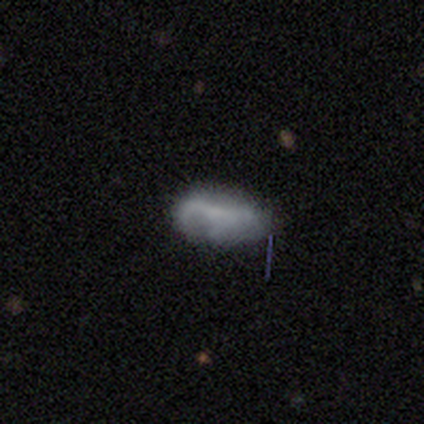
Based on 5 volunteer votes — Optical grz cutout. It shows a featured or disk galaxy (60%) with no bar (67%), 1 (50%, tied with 3) tight (50%, tied with loose) spiral arms (67%) and no central bulge (67%). Merging: none (40%, tied with major disturbance).